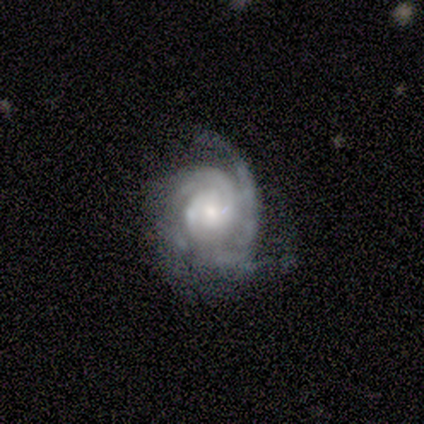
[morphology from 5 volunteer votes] Overall: featured or disk (100%). Edge-on disk: no (100%). Bar: no (60%; weak 40%). Spiral arms: yes (100%). Spiral arm count: can't tell (40%; 2 20%). Spiral winding: tight (80%). Bulge size: small (80%). Merging: none (60%; minor disturbance 40%).